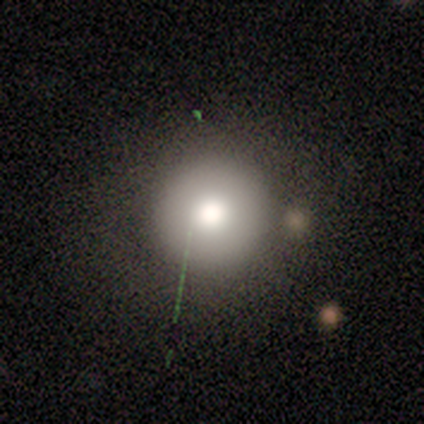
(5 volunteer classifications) smooth 60%, star or artifact 40%, featured or disk 0%. Down the decision tree: how rounded — round (100%); merging — none (67%).